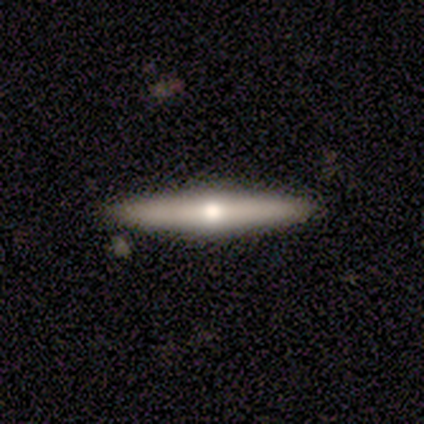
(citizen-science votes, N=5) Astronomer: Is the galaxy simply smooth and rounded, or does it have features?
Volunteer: featured or disk — 60% (runner-up: smooth, 40%).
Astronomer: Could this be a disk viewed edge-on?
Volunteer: yes — 100%.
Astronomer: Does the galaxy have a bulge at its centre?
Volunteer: rounded — 67%.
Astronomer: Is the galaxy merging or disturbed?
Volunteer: none — 80%.